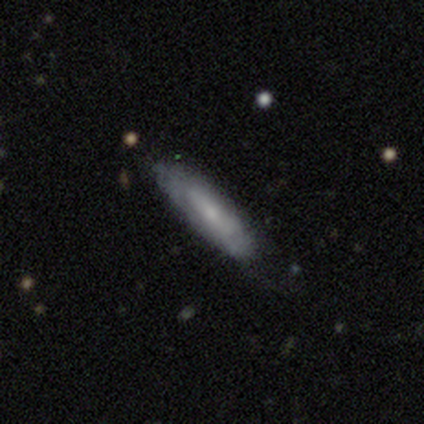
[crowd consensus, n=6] smooth_or_featured: smooth (p=0.50) [tied with: featured or disk p=0.50]
how_rounded: cigar-shaped (p=1.00)
merging: none (p=0.50) [alt: minor disturbance p=0.33]